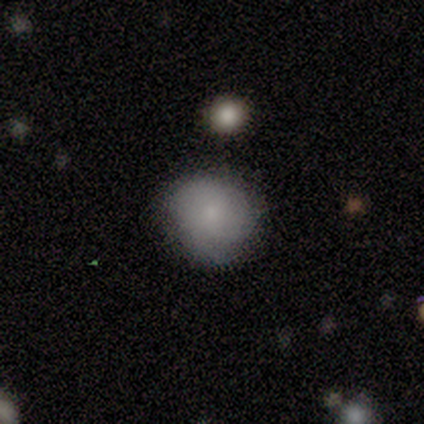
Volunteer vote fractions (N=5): A smooth galaxy with no disk features (60%) that is round (100%).

Vote fractions:
- Smooth or featured? smooth: 60% / star or artifact: 40% / featured or disk: 0%
- How rounded? round: 100% / in between: 0% / cigar-shaped: 0%
- Merging? none: 67% / minor disturbance: 33% / major disturbance: 0% / merger: 0%